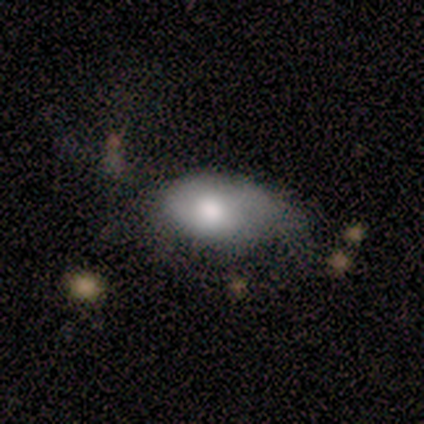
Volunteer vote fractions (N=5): smooth-or-featured: smooth: 80% | featured or disk: 20% | star or artifact: 0%
  how-rounded: in between: 100% | round: 0% | cigar-shaped: 0%
  merging: minor disturbance: 80% | major disturbance: 20% | none: 0% | merger: 0%